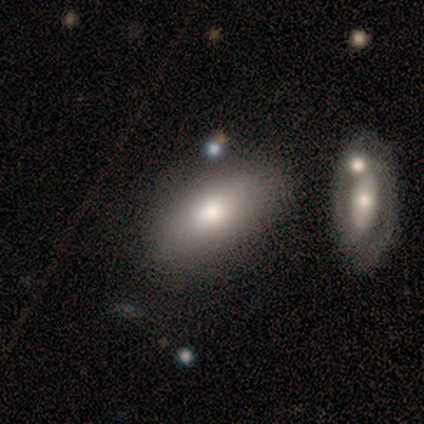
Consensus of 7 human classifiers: A smooth galaxy with no disk features (71%) that is in between round and cigar-shaped (60%). Merging: none (100%).